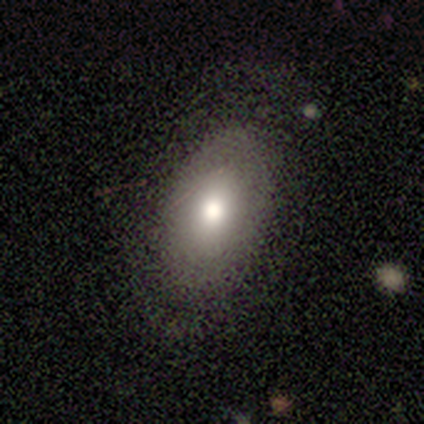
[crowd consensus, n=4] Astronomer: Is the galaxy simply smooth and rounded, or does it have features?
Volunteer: smooth — 100%.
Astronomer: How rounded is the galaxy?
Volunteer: in between — 100%.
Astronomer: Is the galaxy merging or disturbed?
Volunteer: none — 100%.